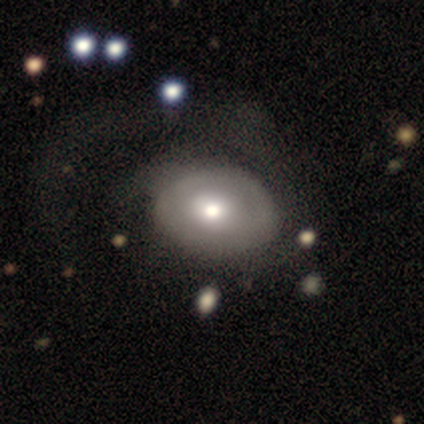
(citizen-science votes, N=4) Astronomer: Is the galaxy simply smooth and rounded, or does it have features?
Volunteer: smooth — 50%, tied with featured or disk at 50%.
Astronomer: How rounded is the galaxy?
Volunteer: in between — 100%.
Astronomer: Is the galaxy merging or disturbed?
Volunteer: none — 100%.